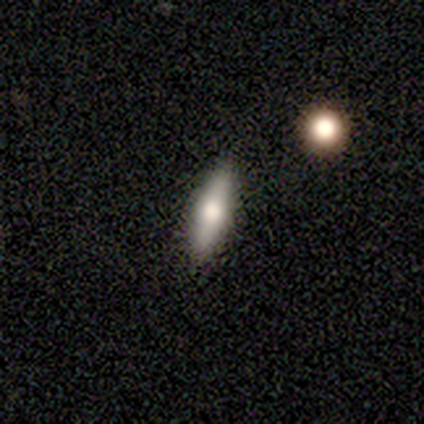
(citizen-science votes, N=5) A featured or disk galaxy (60%) viewed edge-on (67%) with a rounded central bulge (100%).

Vote fractions:
- Smooth or featured? featured or disk: 60% / smooth: 20% / star or artifact: 20%
- Edge-on disk? yes: 67% / no: 33%
- Edge-on bulge? rounded: 100% / boxy: 0% / none: 0%
- Merging? none: 100% / minor disturbance: 0% / major disturbance: 0% / merger: 0%